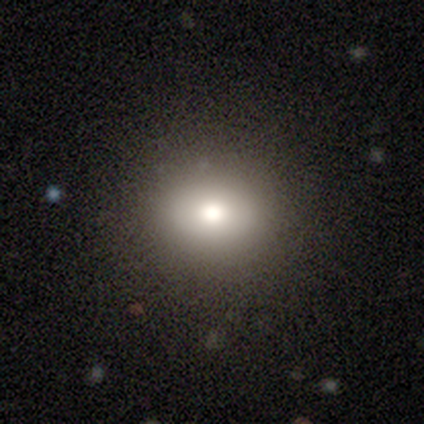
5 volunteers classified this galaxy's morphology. Smooth or featured?
  - smooth: 80% *
  - featured or disk: 20%
  - star or artifact: 0%
How rounded?
  - round: 50% * (tied)
  - in between: 50% * (tied)
  - cigar-shaped: 0%
Merging?
  - none: 100% *
  - minor disturbance: 0%
  - major disturbance: 0%
  - merger: 0%